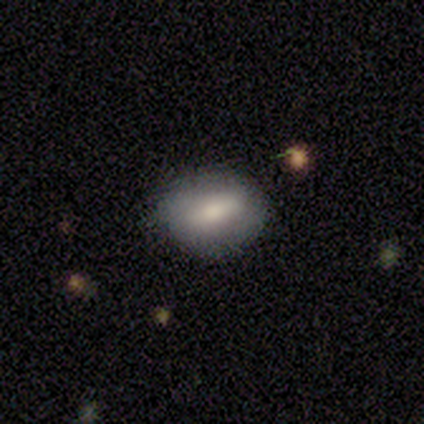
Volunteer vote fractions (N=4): Smooth or featured: smooth — 100%
How rounded: round — 50% (tied with in between — 50%)
Merging: none — 50% (tied with minor disturbance — 50%)